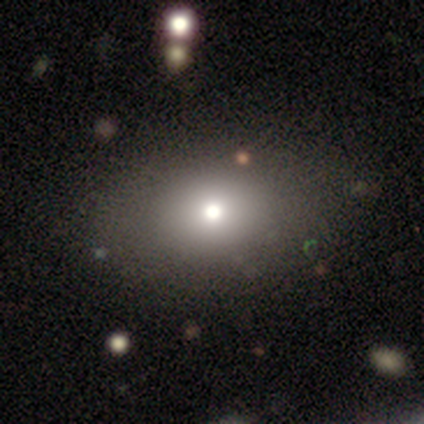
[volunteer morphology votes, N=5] Volunteers were most divided on "how rounded": in between: 67%, round: 33%, cigar-shaped: 0%. More confident: merging — none (100%); smooth or featured — smooth (60%).